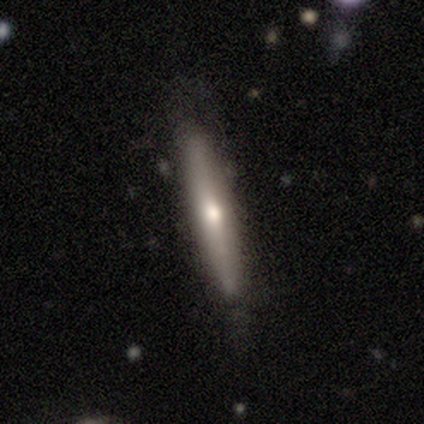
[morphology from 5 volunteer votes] type=smooth (60%); roundness=cigar-shaped (100%); merging=minor disturbance (60%).